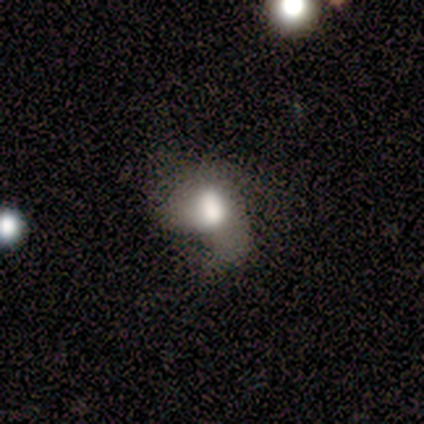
Overall: smooth (100%). How rounded: in between (100%). Merging: minor disturbance (50%, tied with major disturbance).